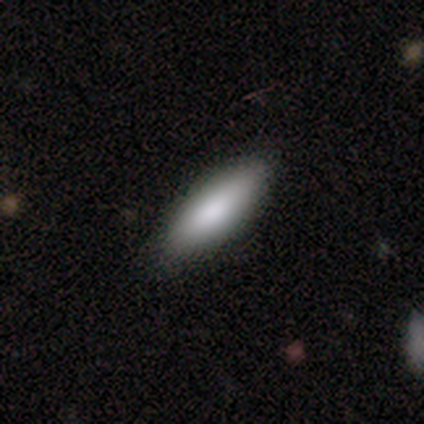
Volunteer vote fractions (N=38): smooth 84%, featured or disk 8%, star or artifact 8%. Down the decision tree: how rounded — in between (62%); merging — none (86%).